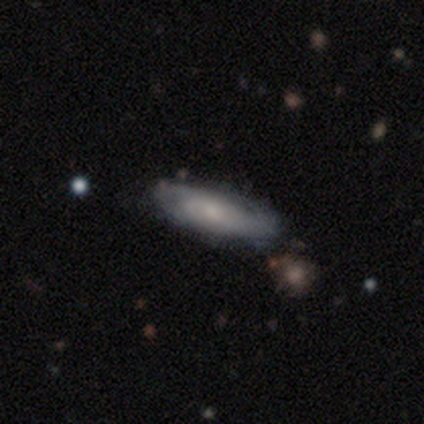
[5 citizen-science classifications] Smooth or featured? smooth (60%)
How rounded? in between (100%)
Merging? none (80%)